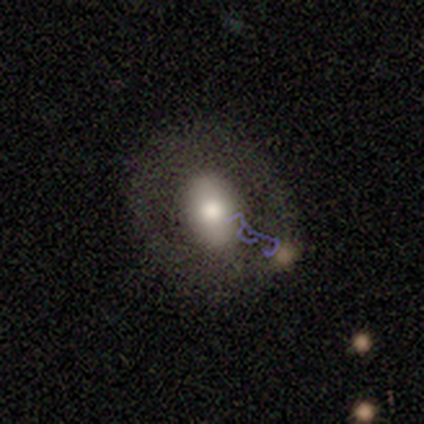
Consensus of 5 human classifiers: Smooth or featured? 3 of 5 (60%) said featured or disk. Edge-on disk? 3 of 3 (100%) said no. Bar? 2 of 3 (67%) said no. Spiral arms? 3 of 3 (100%) said no. Bulge size? 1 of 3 (33%, tied with large and moderate) said dominant. Merging? 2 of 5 (40%) said none.